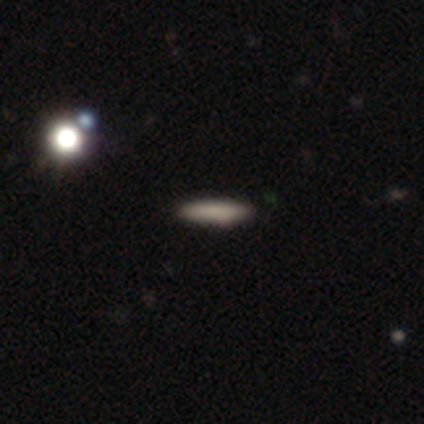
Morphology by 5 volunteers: A smooth galaxy with no disk features (100%) that is cigar-shaped (60%). Merging: none (100%).